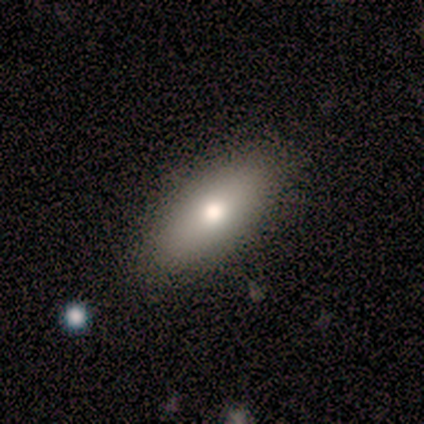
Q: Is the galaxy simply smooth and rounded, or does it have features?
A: smooth — 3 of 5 (60%).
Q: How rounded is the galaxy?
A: in between — 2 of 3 (67%).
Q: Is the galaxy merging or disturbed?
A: none — 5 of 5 (100%).